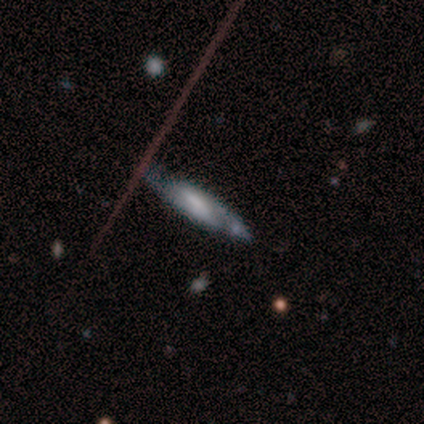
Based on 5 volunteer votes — A featured or disk galaxy (80%) viewed edge-on (50%, tied with no) with no central bulge (50%, tied with rounded). Merging: none (80%).